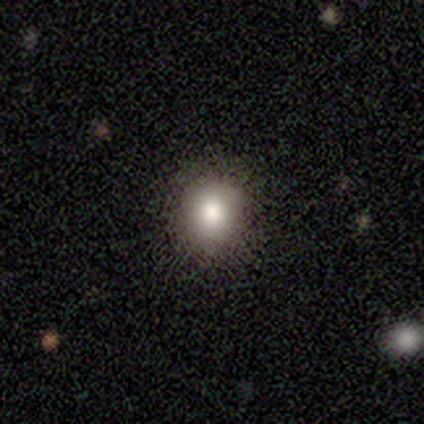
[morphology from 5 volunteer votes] type=smooth (60%); roundness=in between (67%); merging=none (80%).